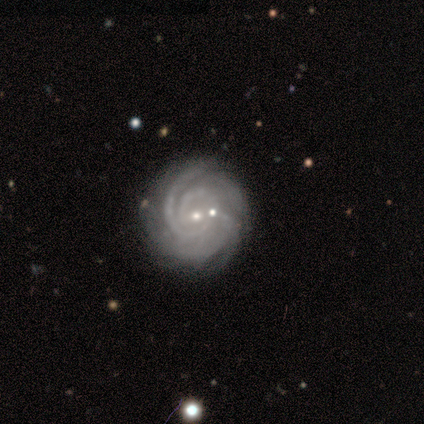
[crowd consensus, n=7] Smooth or featured? featured or disk (100%)
Edge-on disk? no (100%)
Bar? weak (43%, tied with no)
Spiral arms? yes (100%)
Spiral winding? tight (57%)
Spiral arm count? can't tell (43%)
Bulge size? small (86%)
Merging? none (86%)